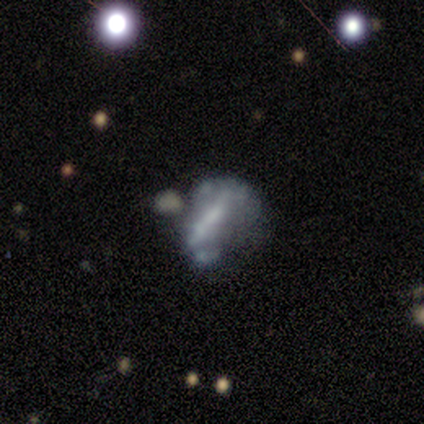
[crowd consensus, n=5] Smooth or featured: featured or disk — 80% (smooth — 20%)
Edge-on disk: no — 100%
Bar: no — 75% (strong — 25%)
Spiral arms: no — 100%
Bulge size: none — 75% (small — 25%)
Merging: major disturbance — 60% (none — 40%)